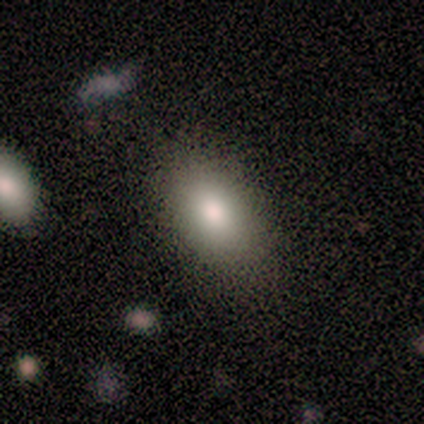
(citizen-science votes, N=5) A smooth galaxy with no disk features (100%) that is in between round and cigar-shaped (100%).

Vote fractions:
- Smooth or featured? smooth: 100% / featured or disk: 0% / star or artifact: 0%
- How rounded? in between: 100% / round: 0% / cigar-shaped: 0%
- Merging? none: 80% / minor disturbance: 20% / major disturbance: 0% / merger: 0%